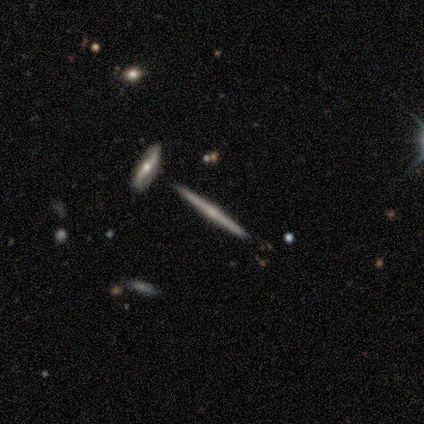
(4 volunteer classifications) A featured or disk galaxy (100%) viewed edge-on (100%) with no central bulge (100%). Merging: none (100%).